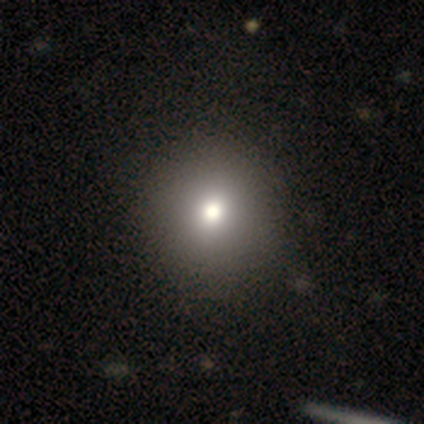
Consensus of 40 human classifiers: Smooth or featured? 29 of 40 (72%) said smooth. How rounded? 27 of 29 (93%) said round. Merging? 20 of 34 (59%) said none.